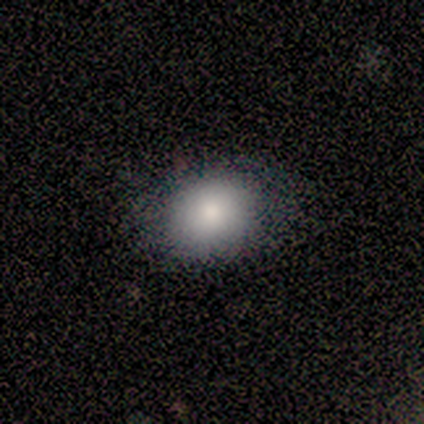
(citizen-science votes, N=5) Morphology: type=smooth (80%); roundness=in between (75%); merging=none (100%).